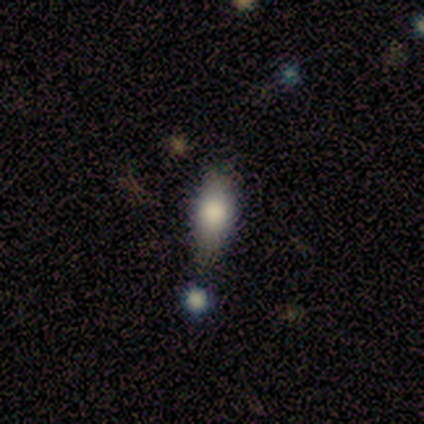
smooth 75%, star or artifact 25%, featured or disk 0%. Down the decision tree: how rounded — in between (67%); merging — none (100%).